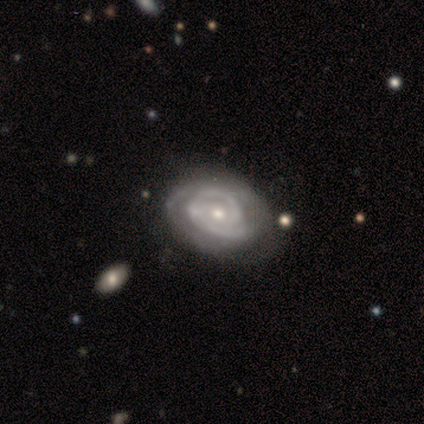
This is clearly a featured or disk galaxy (100%). It is clearly not viewed edge-on (100%). Bar: clearly no (100%). Spiral arm pattern: clearly yes (100%). Spiral arm count: clearly 2 (80%). Spiral winding: clearly tight (80%). Central bulge: marginally moderate (40%, tied with small). Merging: clearly none (100%).